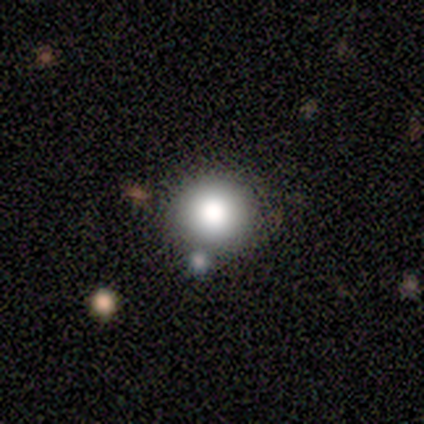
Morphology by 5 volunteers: smooth-or-featured: featured or disk: 60% | smooth: 40% | star or artifact: 0%
  disk-edge-on: no: 100% | yes: 0%
    bar: no: 100% | strong: 0% | weak: 0%
    has-spiral-arms: no: 100% | yes: 0%
    bulge-size: large: 67% | dominant: 33% | moderate: 0% | small: 0% | none: 0%
  merging: none: 80% | merger: 20% | minor disturbance: 0% | major disturbance: 0%